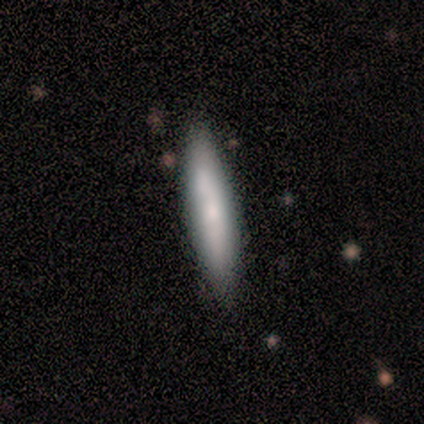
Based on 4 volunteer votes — smooth 100%, featured or disk 0%, star or artifact 0%. Down the decision tree: how rounded — cigar-shaped (100%); merging — none (100%).